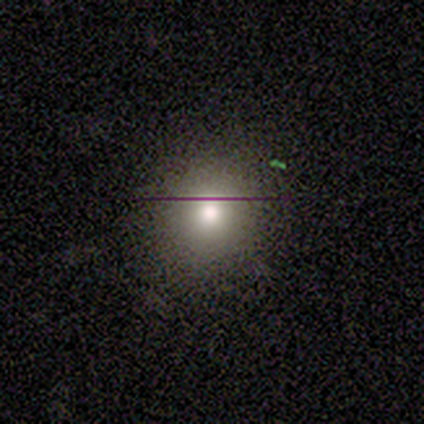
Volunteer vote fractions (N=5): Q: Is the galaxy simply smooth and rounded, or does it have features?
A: smooth — 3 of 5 (60%).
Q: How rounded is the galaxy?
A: round — 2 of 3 (67%).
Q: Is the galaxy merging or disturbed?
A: none — 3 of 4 (75%).